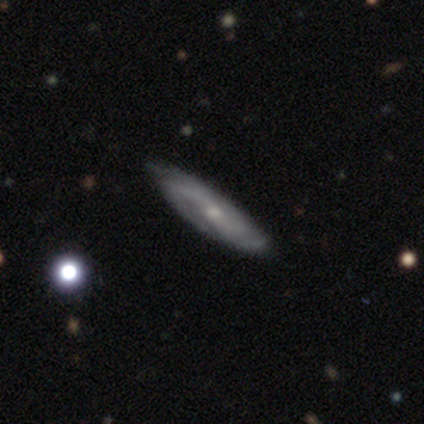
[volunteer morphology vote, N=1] This is clearly a featured or disk galaxy (100%). It is clearly not viewed edge-on (100%). Bar: clearly no (100%). Spiral arm pattern: clearly yes (100%). Spiral arm count: clearly 2 (100%). Spiral winding: clearly medium (100%). Central bulge: clearly small (100%). Merging: clearly none (100%).